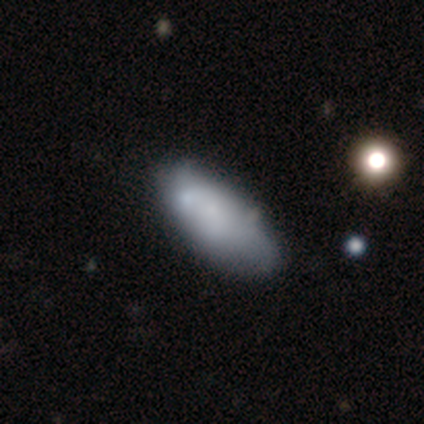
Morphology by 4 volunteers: Q: Smooth or featured?
A: smooth (50%); runner-up: featured or disk (25%)
Q: How rounded?
A: in between (100%)
Q: Merging?
A: none (67%); runner-up: major disturbance (33%)